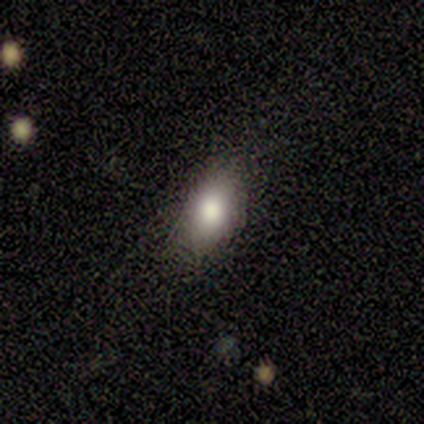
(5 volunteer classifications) A smooth galaxy with no disk features (60%) that is round (67%).

Vote fractions:
- Smooth or featured? smooth: 60% / featured or disk: 20% / star or artifact: 20%
- How rounded? round: 67% / in between: 33% / cigar-shaped: 0%
- Merging? none: 75% / major disturbance: 25% / minor disturbance: 0% / merger: 0%